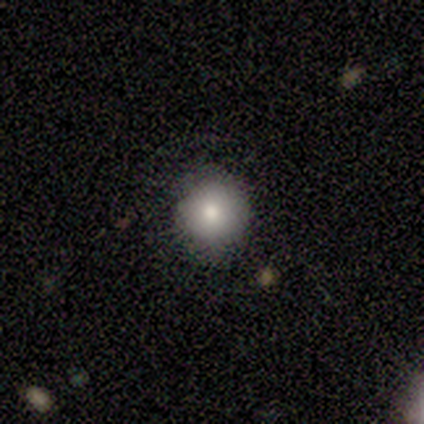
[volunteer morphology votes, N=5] This appears to be a smooth galaxy with no disk features (80%) that is round (100%). Merging: none (100%).